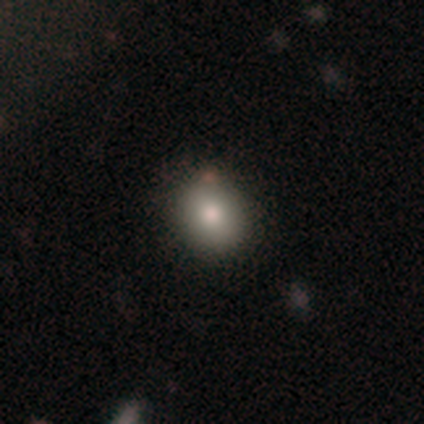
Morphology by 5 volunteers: Smooth or featured?
  - smooth: 60% *
  - star or artifact: 40%
  - featured or disk: 0%
How rounded?
  - round: 67% *
  - in between: 33%
  - cigar-shaped: 0%
Merging?
  - none: 67% *
  - minor disturbance: 33%
  - major disturbance: 0%
  - merger: 0%